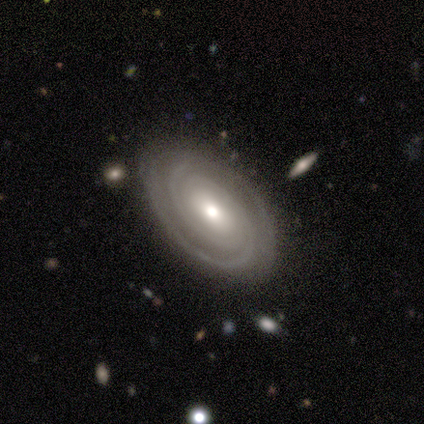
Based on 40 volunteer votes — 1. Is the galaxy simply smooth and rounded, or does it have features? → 95% featured or disk, 5% star or artifact, 0% smooth.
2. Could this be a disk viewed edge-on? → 95% no, 5% yes.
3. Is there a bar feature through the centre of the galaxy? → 58% no, 39% weak, 3% strong.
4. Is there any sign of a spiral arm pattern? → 94% yes, 6% no.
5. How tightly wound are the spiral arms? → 79% tight, 15% medium, 6% loose.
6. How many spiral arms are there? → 76% 2, 9% can't tell, 6% 3, 6% 4, 3% more than 4, 0% 1.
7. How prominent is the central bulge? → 78% moderate, 14% small, 8% large, 0% dominant, 0% none.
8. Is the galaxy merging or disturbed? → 95% none, 3% minor disturbance, 3% major disturbance, 0% merger.